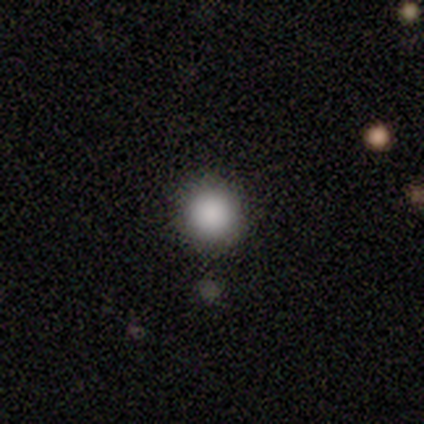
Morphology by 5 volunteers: This is clearly a smooth galaxy (100%). How rounded: clearly round (100%). Merging: clearly none (80%).